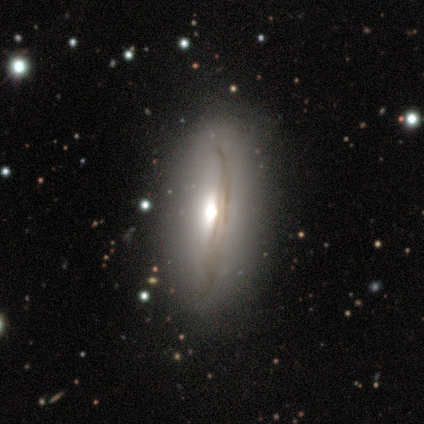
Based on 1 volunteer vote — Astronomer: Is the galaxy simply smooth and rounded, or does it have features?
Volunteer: featured or disk — 100%.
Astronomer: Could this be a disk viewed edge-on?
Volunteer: no — 100%.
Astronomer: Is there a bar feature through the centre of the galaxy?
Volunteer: weak — 100%.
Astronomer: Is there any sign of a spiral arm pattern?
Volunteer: no — 100%.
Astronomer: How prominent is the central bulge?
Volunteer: moderate — 100%.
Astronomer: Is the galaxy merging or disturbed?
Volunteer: none — 100%.